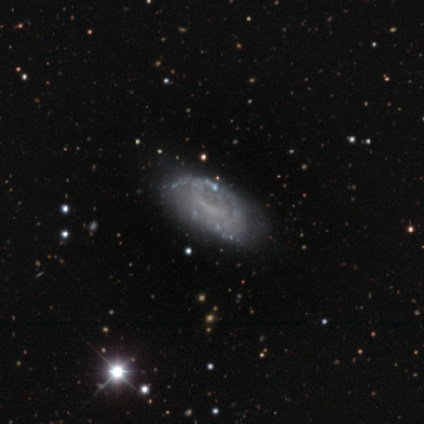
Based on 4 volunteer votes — Q: Smooth or featured?
A: featured or disk (75%); runner-up: smooth (25%)
Q: Edge-on disk?
A: no (100%)
Q: Bar?
A: no (100%)
Q: Spiral arms?
A: no (67%); runner-up: yes (33%)
Q: Bulge size?
A: none (100%)
Q: Merging?
A: none (50%); tied with: minor disturbance (50%)